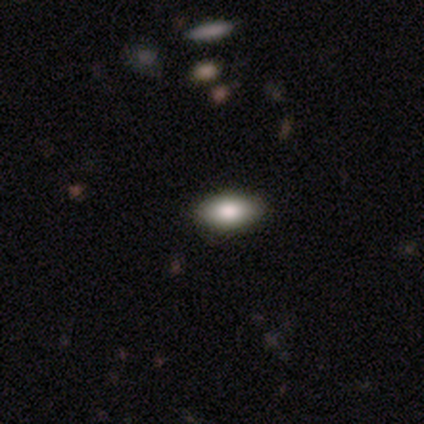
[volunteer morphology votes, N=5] A smooth galaxy with no disk features (80%) that is in between round and cigar-shaped (75%).

Vote fractions:
- Smooth or featured? smooth: 80% / featured or disk: 20% / star or artifact: 0%
- How rounded? in between: 75% / cigar-shaped: 25% / round: 0%
- Merging? none: 100% / minor disturbance: 0% / major disturbance: 0% / merger: 0%